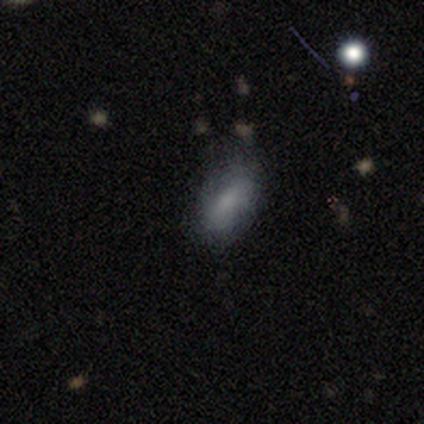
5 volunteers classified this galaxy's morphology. type=smooth (80%); roundness=in between (75%); merging=none (80%).